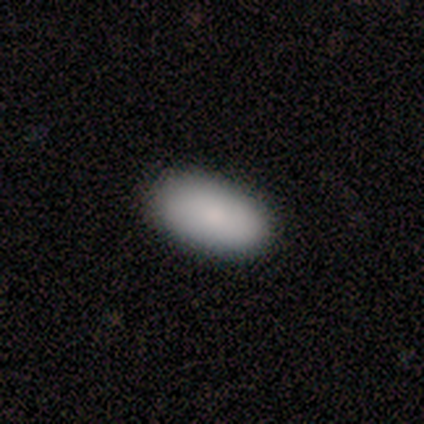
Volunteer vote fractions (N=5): Q: Smooth or featured?
A: smooth (80%); runner-up: star or artifact (20%)
Q: How rounded?
A: in between (75%); runner-up: cigar-shaped (25%)
Q: Merging?
A: none (75%); runner-up: minor disturbance (25%)